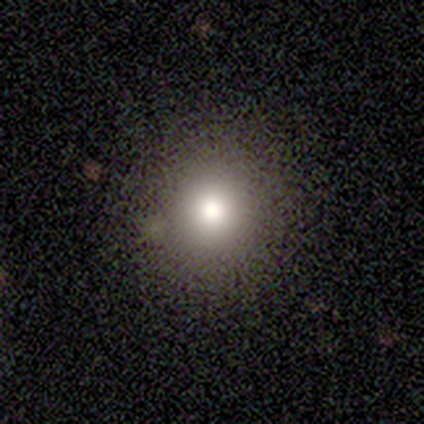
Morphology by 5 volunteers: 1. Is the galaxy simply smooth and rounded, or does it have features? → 80% smooth, 20% star or artifact, 0% featured or disk.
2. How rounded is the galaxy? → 100% round, 0% in between, 0% cigar-shaped.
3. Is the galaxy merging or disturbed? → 100% none, 0% minor disturbance, 0% major disturbance, 0% merger.